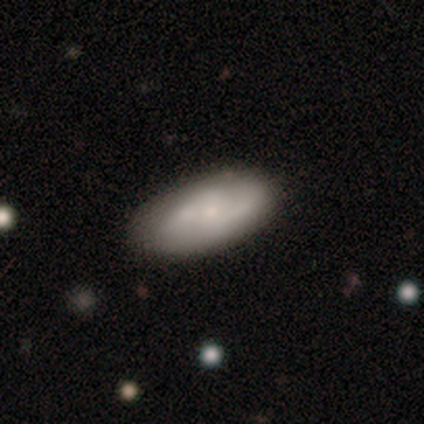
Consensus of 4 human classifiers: smooth-or-featured: smooth: 75% | featured or disk: 25% | star or artifact: 0%
  how-rounded: in between: 67% | cigar-shaped: 33% | round: 0%
  merging: none: 75% | minor disturbance: 25% | major disturbance: 0% | merger: 0%